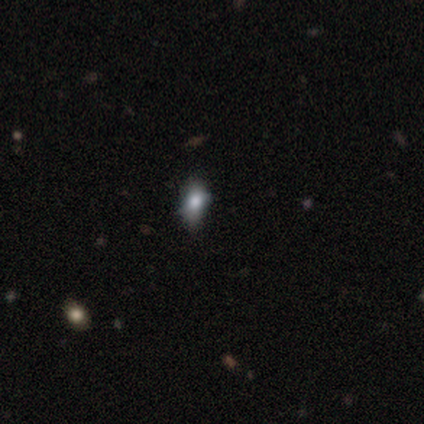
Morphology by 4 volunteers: This appears to be a smooth galaxy with no disk features (75%) that is in between round and cigar-shaped (67%). Merging: none (100%).